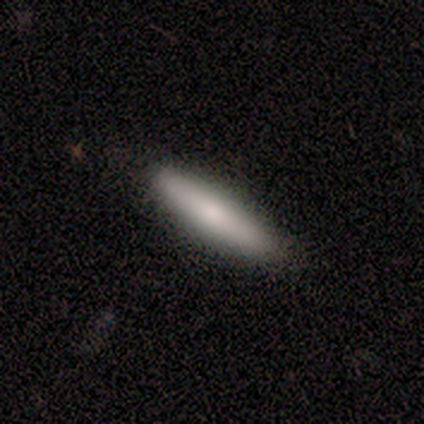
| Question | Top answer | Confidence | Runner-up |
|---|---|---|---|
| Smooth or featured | smooth | 80% | featured or disk (20%) |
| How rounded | cigar-shaped | 100% | — |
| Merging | none | 100% | — |